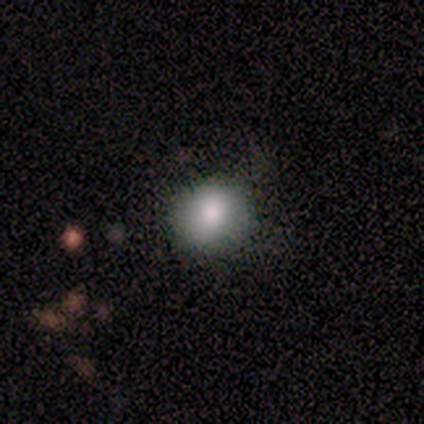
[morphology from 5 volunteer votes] type=smooth (100%); roundness=round (100%); merging=none (80%).